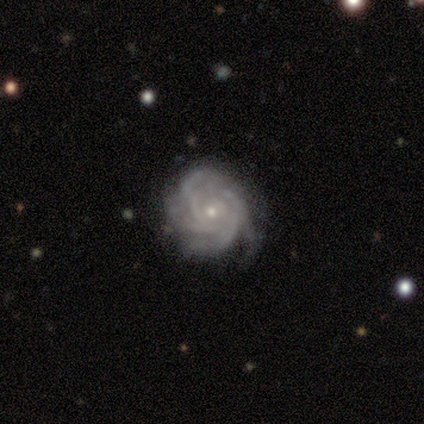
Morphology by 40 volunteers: type=featured or disk (95%); edge-on=no (100%); bar=no (87%); spiral arms=yes (100%); winding=tight (76%); arm count=4 (39%); bulge=small (87%); merging=none (79%).